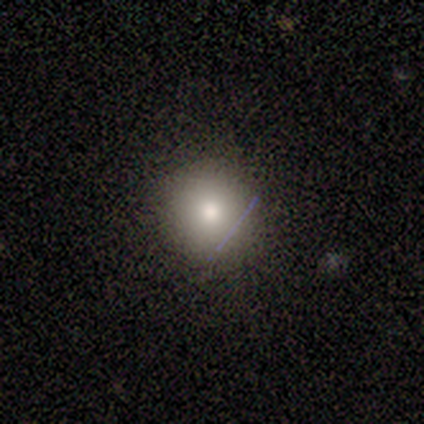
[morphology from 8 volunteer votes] Q: Smooth or featured?
A: smooth (88%); runner-up: featured or disk (12%)
Q: How rounded?
A: round (100%)
Q: Merging?
A: none (88%); runner-up: merger (12%)